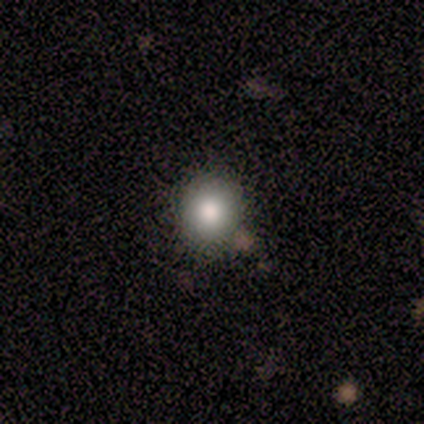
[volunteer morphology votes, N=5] A smooth galaxy with no disk features (80%) that is round (100%). Merging: none (100%).